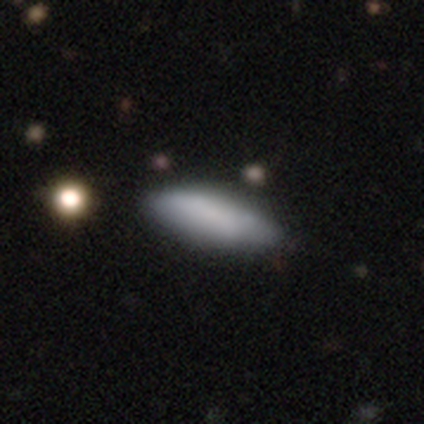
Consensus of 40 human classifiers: smooth-or-featured: smooth: 90% | featured or disk: 10% | star or artifact: 0%
  how-rounded: in between: 64% | cigar-shaped: 36% | round: 0%
  merging: none: 70% | minor disturbance: 25% | major disturbance: 2% | merger: 2%